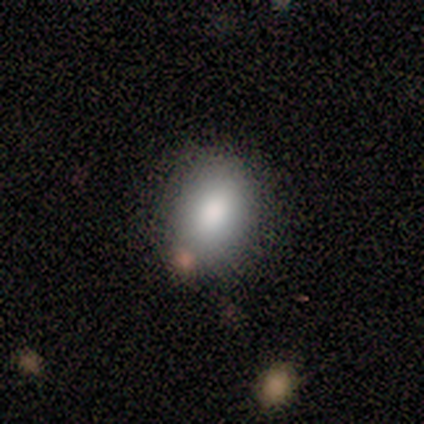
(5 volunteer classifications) smooth_or_featured: smooth (p=1.00)
how_rounded: round (p=0.60) [alt: in between p=0.40]
merging: none (p=0.80) [alt: minor disturbance p=0.20]